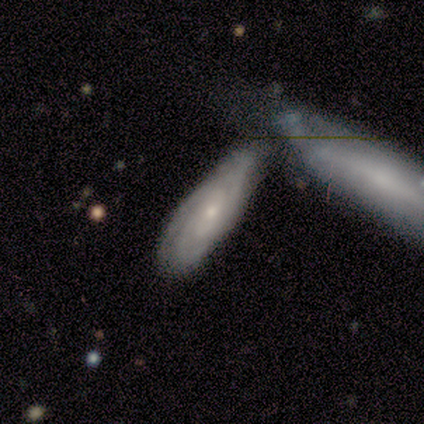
This is likely a featured or disk galaxy (60%). It is clearly not viewed edge-on (100%). Bar: clearly no (100%). Spiral arm pattern: clearly yes (100%). Spiral arm count: marginally 2 (33%, tied with 3 and 4). Spiral winding: likely medium (67%). Central bulge: likely moderate (67%). Merging: possibly none (50%).